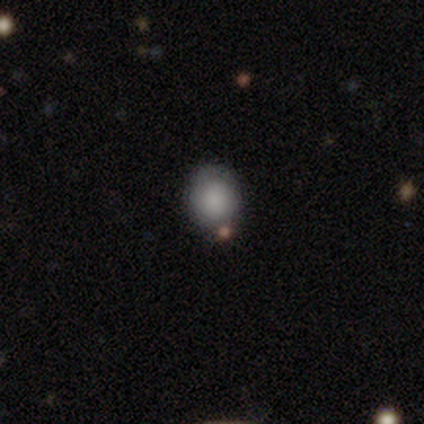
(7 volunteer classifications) Smooth or featured? 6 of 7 (86%) said smooth. How rounded? 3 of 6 (50%, tied with in between) said round. Merging? 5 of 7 (71%) said none.